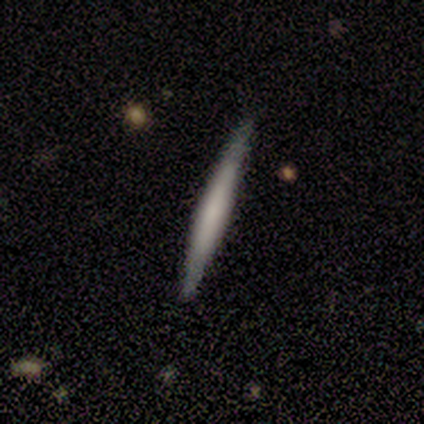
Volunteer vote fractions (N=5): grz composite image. It shows a smooth galaxy with no disk features (60%) that is cigar-shaped (100%). Merging: none (100%).